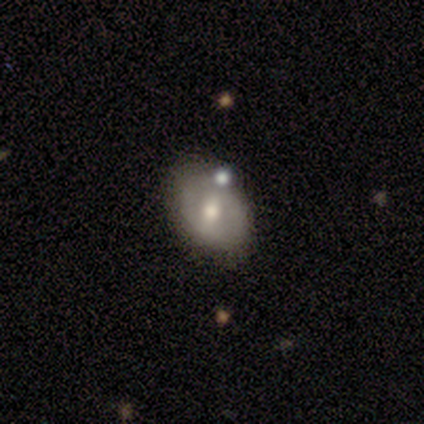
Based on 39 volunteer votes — This is possibly a smooth galaxy (56%). How rounded: clearly in between (82%). Merging: likely none (71%).